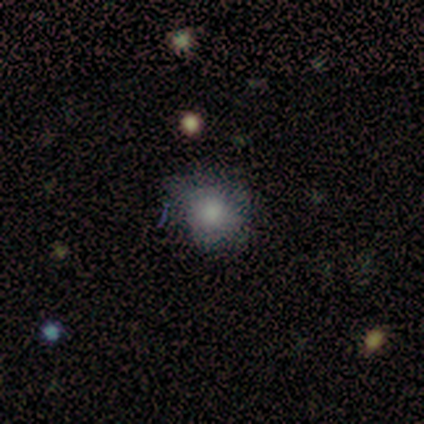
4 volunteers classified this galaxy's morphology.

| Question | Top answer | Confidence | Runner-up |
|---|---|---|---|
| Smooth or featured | smooth | 75% | star or artifact (25%) |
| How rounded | round | 67% | in between (33%) |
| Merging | none | 67% | minor disturbance (33%) |